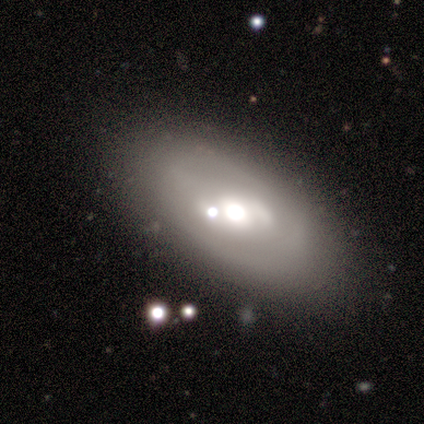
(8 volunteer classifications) Q: Smooth or featured?
A: featured or disk (100%)
Q: Edge-on disk?
A: no (75%); runner-up: yes (25%)
Q: Bar?
A: no (83%); runner-up: weak (17%)
Q: Spiral arms?
A: no (83%); runner-up: yes (17%)
Q: Bulge size?
A: moderate (67%); runner-up: dominant (17%)
Q: Merging?
A: none (62%); runner-up: minor disturbance (25%)